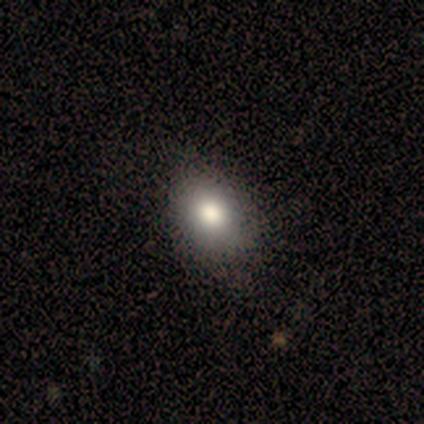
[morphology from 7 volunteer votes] smooth_or_featured: smooth (p=0.71) [alt: star or artifact p=0.29]
how_rounded: in between (p=0.60) [alt: round p=0.40]
merging: none (p=1.00)